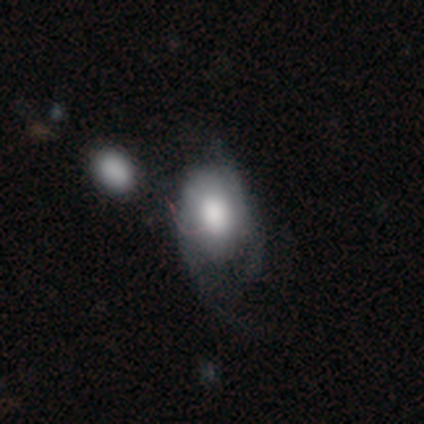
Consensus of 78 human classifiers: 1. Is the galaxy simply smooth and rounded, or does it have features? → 59% smooth, 37% featured or disk, 4% star or artifact.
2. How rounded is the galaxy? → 70% in between, 28% round, 2% cigar-shaped.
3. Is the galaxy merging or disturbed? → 24% minor disturbance, 17% major disturbance, 17% merger, 7% none.